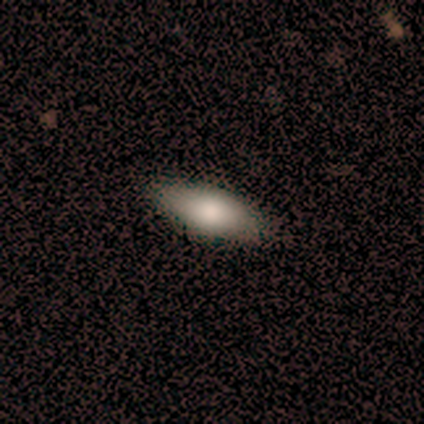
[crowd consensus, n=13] Smooth or featured? 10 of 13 (77%) said smooth. How rounded? 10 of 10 (100%) said in between. Merging? 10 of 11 (91%) said none.